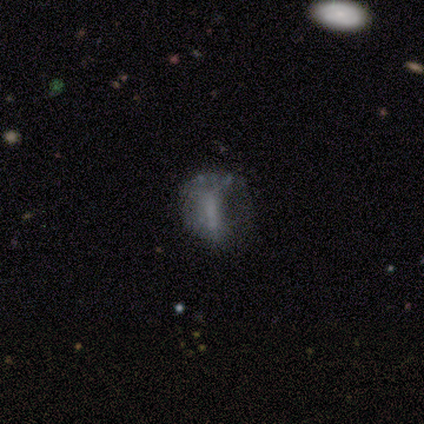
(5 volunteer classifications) smooth 60%, featured or disk 20%, star or artifact 20%. Down the decision tree: how rounded — in between (67%); merging — none (50%).